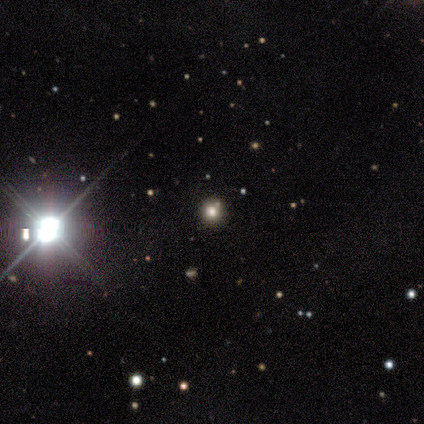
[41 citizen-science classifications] Smooth or featured? 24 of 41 (59%) said star or artifact.